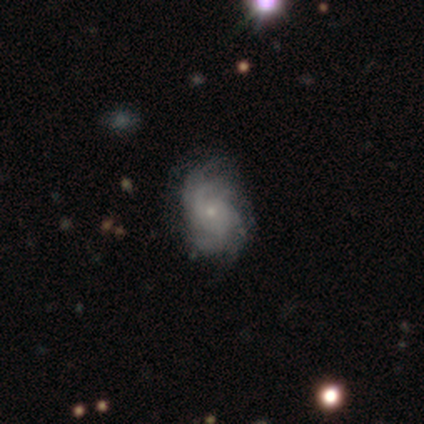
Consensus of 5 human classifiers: Smooth or featured?
  - featured or disk: 100% *
  - smooth: 0%
  - star or artifact: 0%
Edge-on disk?
  - no: 100% *
  - yes: 0%
Bar?
  - no: 80% *
  - weak: 20%
  - strong: 0%
Spiral arms?
  - yes: 100% *
  - no: 0%
Spiral winding?
  - tight: 40% * (tied)
  - loose: 40% * (tied)
  - medium: 20%
Spiral arm count?
  - 2: 40% * (tied)
  - more than 4: 40% * (tied)
  - can't tell: 20%
  - 1: 0%
  - 3: 0%
  - 4: 0%
Bulge size?
  - small: 100% *
  - dominant: 0%
  - large: 0%
  - moderate: 0%
  - none: 0%
Merging?
  - none: 80% *
  - minor disturbance: 20%
  - major disturbance: 0%
  - merger: 0%